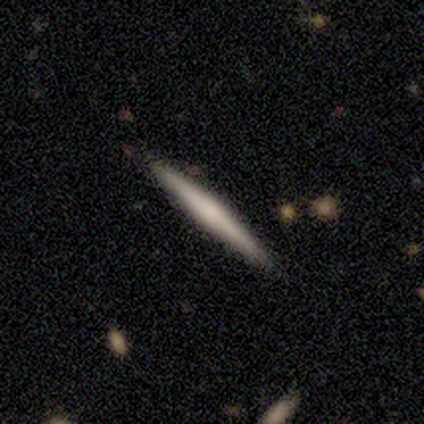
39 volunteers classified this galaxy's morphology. smooth 49% (tied), featured or disk 49% (tied), star or artifact 3%. Down the decision tree: how rounded — cigar-shaped (100%); merging — none (87%).